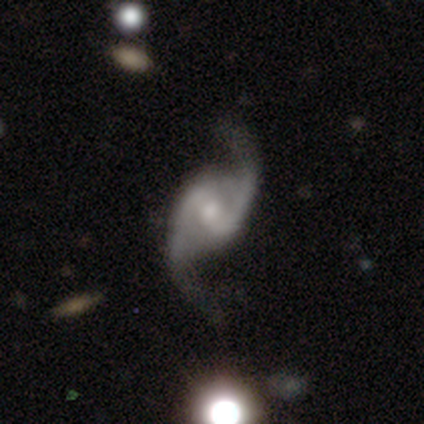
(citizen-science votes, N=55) This is clearly a featured or disk galaxy (95%). It is clearly not viewed edge-on (98%). Bar: likely weak (61%). Spiral arm pattern: clearly yes (98%). Spiral arm count: clearly 2 (98%). Spiral winding: likely loose (68%). Central bulge: likely moderate (61%). Merging: possibly none (58%).